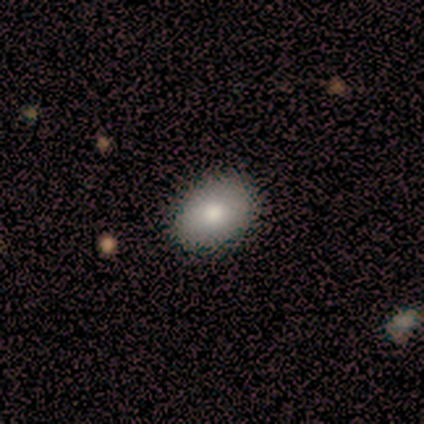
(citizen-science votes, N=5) Smooth or featured: smooth — 80% (featured or disk — 20%)
How rounded: in between — 100%
Merging: none — 100%